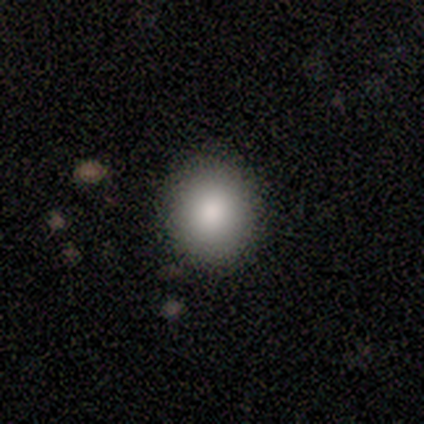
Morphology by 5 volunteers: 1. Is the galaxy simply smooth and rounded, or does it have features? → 100% smooth, 0% featured or disk, 0% star or artifact.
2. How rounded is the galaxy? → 100% round, 0% in between, 0% cigar-shaped.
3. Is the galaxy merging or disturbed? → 80% none, 20% merger, 0% minor disturbance, 0% major disturbance.